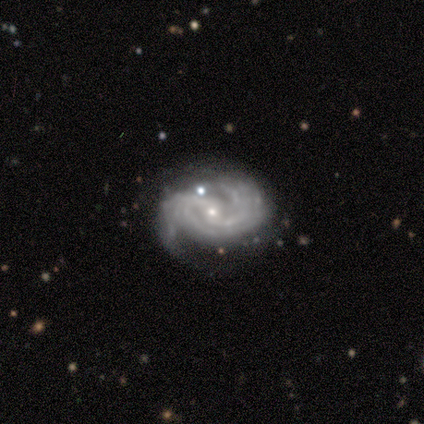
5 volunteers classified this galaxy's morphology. Q: Smooth or featured?
A: featured or disk (100%)
Q: Edge-on disk?
A: no (100%)
Q: Bar?
A: no (80%); runner-up: weak (20%)
Q: Spiral arms?
A: yes (100%)
Q: Spiral winding?
A: tight (80%); runner-up: medium (20%)
Q: Spiral arm count?
A: 2 (100%)
Q: Bulge size?
A: moderate (40%); tied with: small (40%)
Q: Merging?
A: none (80%); runner-up: minor disturbance (20%)